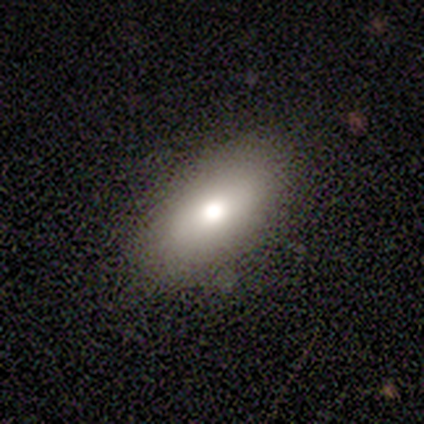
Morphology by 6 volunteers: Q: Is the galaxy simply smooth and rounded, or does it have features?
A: smooth — 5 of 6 (83%).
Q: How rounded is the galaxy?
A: in between — 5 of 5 (100%).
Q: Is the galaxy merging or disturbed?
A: none — 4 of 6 (67%).